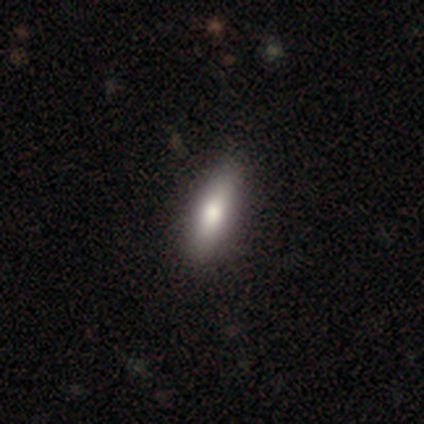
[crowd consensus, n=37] Smooth or featured? 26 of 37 (70%) said smooth. How rounded? 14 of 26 (54%) said cigar-shaped. Merging? 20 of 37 (54%) said none.